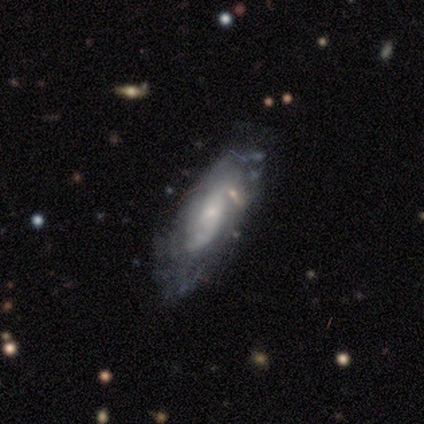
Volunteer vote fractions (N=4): smooth-or-featured: featured or disk: 75% | smooth: 25% | star or artifact: 0%
  disk-edge-on: no: 100% | yes: 0%
    bar: no: 67% | weak: 33% | strong: 0%
    has-spiral-arms: no: 67% | yes: 33%
    bulge-size: small: 67% | moderate: 33% | dominant: 0% | large: 0% | none: 0%
  merging: none: 75% | minor disturbance: 25% | major disturbance: 0% | merger: 0%